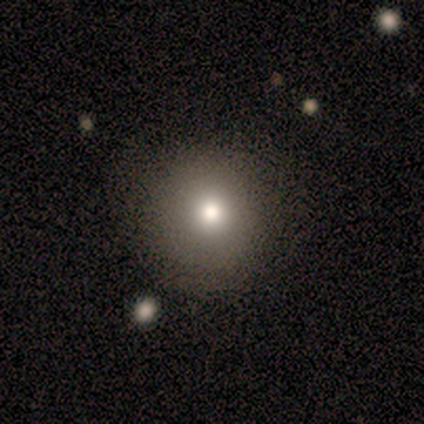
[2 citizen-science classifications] This appears to be a smooth galaxy with no disk features (100%) that is round (50%, tied with in between). Merging: none (100%).